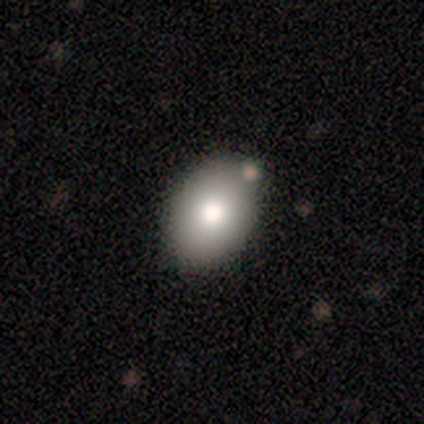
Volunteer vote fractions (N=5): smooth 40% (tied), featured or disk 40% (tied), star or artifact 20%. Down the decision tree: how rounded — in between (100%); merging — none (100%).